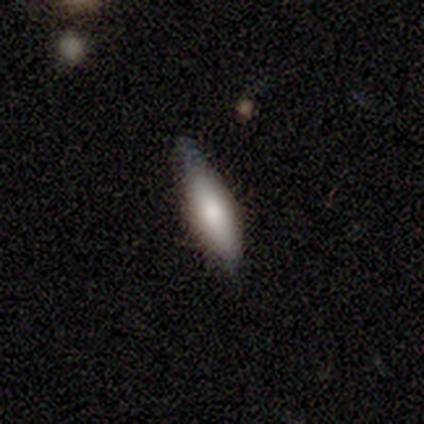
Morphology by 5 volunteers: Q: Smooth or featured?
A: featured or disk (60%); runner-up: smooth (40%)
Q: Edge-on disk?
A: yes (100%)
Q: Edge-on bulge?
A: rounded (67%); runner-up: none (33%)
Q: Merging?
A: none (80%); runner-up: major disturbance (20%)